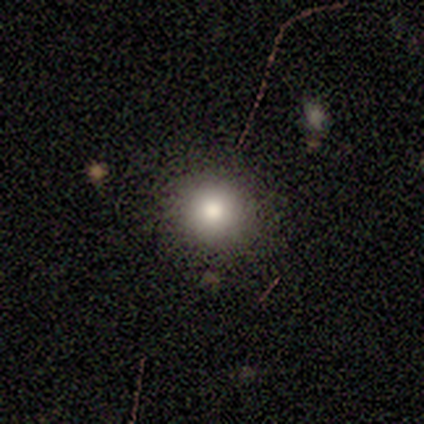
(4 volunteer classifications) smooth-or-featured: smooth: 100% | featured or disk: 0% | star or artifact: 0%
  how-rounded: round: 50% (tied) | in between: 50% (tied) | cigar-shaped: 0%
  merging: none: 75% | major disturbance: 25% | minor disturbance: 0% | merger: 0%